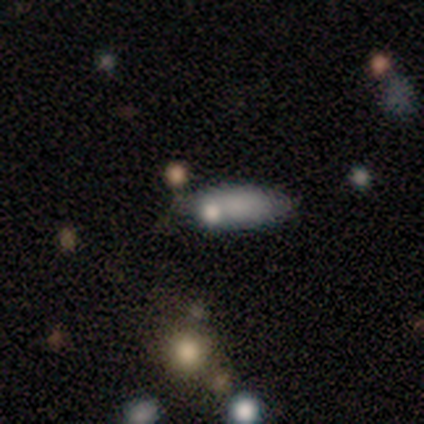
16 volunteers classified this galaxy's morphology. smooth-or-featured: smooth: 50% | featured or disk: 44% | star or artifact: 6%
  how-rounded: in between: 62% | cigar-shaped: 38% | round: 0%
  merging: none: 53% | merger: 20% | minor disturbance: 13% | major disturbance: 13%